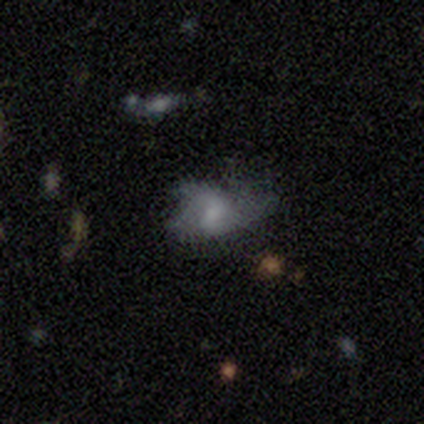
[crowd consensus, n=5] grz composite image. It shows a featured or disk galaxy (100%) with no bar (50%), no spiral arms (75%) and a small central bulge (50%). Merging: minor disturbance (40%, tied with major disturbance).